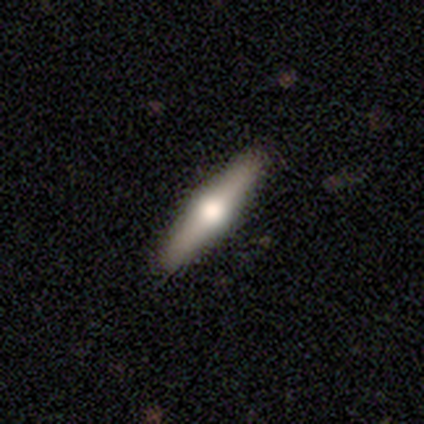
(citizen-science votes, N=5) This appears to be a featured or disk galaxy (80%) viewed edge-on (100%) with a rounded central bulge (100%). Merging: none (100%).